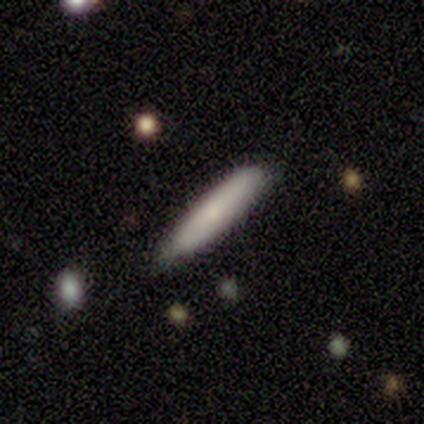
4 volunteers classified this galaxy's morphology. Smooth or featured?
  - smooth: 75% *
  - featured or disk: 25%
  - star or artifact: 0%
How rounded?
  - cigar-shaped: 67% *
  - in between: 33%
  - round: 0%
Merging?
  - none: 75% *
  - minor disturbance: 25%
  - major disturbance: 0%
  - merger: 0%